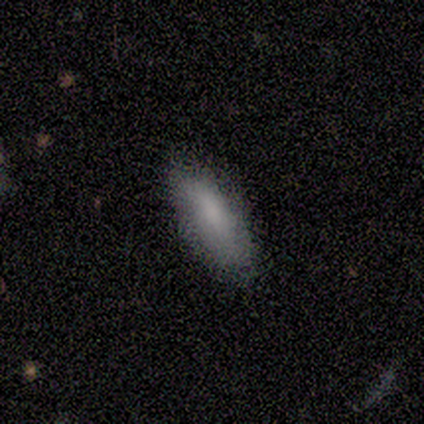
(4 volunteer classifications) Smooth or featured? smooth (75%)
How rounded? in between (100%)
Merging? none (75%)